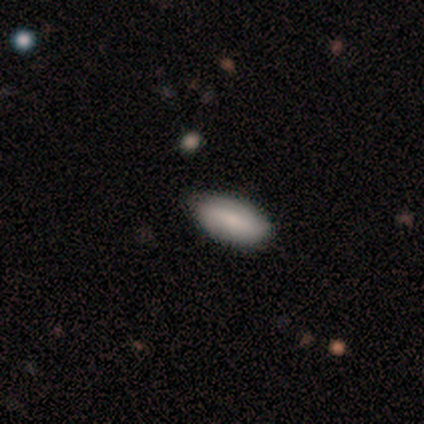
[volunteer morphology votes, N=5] Volunteers were most divided on "smooth or featured": smooth: 80%, featured or disk: 20%, star or artifact: 0%. More confident: how rounded — in between (100%); merging — none (80%).